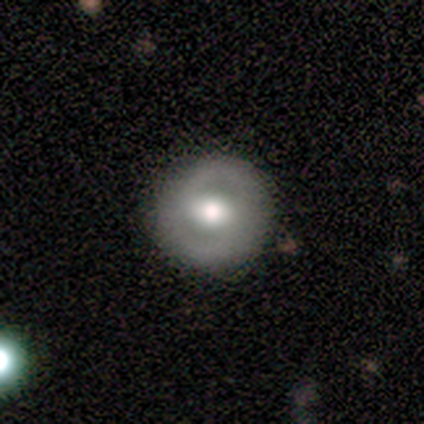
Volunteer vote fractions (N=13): Smooth or featured? featured or disk (62%)
Edge-on disk? no (100%)
Bar? strong (38%, tied with weak)
Spiral arms? no (75%)
Bulge size? moderate (88%)
Merging? none (77%)